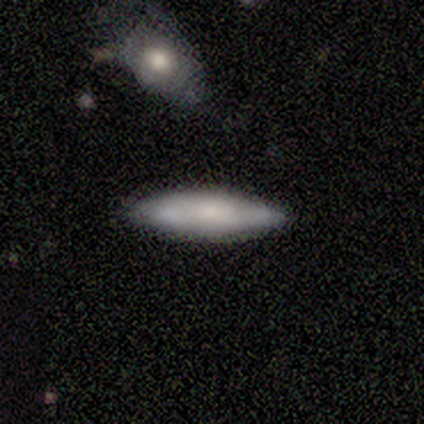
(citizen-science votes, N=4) Smooth or featured? smooth (100%)
How rounded? cigar-shaped (100%)
Merging? none (100%)